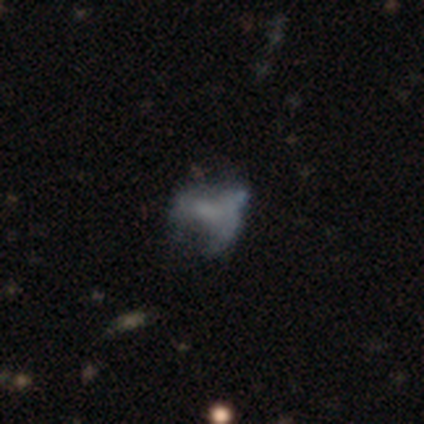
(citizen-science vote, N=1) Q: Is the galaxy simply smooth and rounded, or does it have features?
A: smooth — 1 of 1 (100%).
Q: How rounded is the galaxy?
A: in between — 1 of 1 (100%).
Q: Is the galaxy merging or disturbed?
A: major disturbance — 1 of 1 (100%).